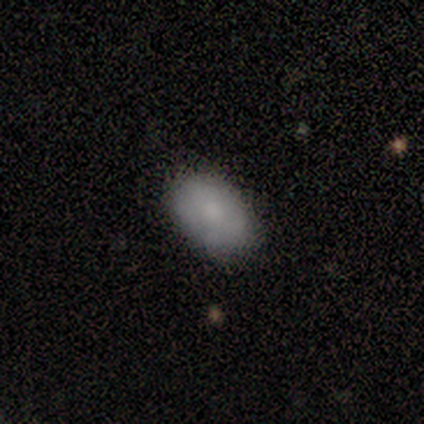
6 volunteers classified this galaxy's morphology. Smooth or featured?
  - smooth: 100% *
  - featured or disk: 0%
  - star or artifact: 0%
How rounded?
  - in between: 83% *
  - round: 17%
  - cigar-shaped: 0%
Merging?
  - none: 100% *
  - minor disturbance: 0%
  - major disturbance: 0%
  - merger: 0%